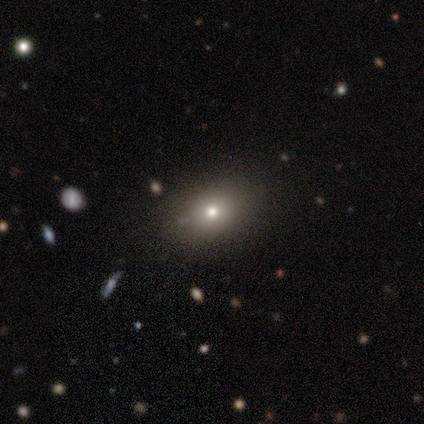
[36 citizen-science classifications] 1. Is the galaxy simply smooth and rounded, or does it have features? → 64% smooth, 19% featured or disk, 17% star or artifact.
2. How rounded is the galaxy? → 48% in between, 43% round, 9% cigar-shaped.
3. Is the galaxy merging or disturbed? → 87% none, 10% minor disturbance, 3% major disturbance, 0% merger.